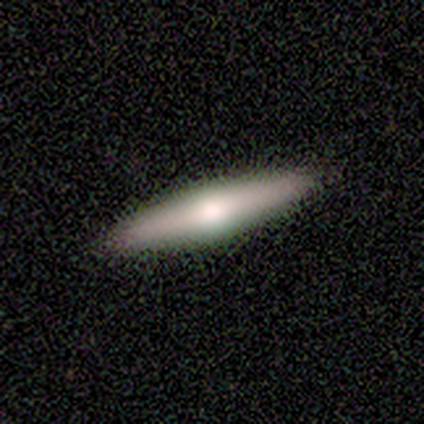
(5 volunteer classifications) Overall: featured or disk (60%; smooth 40%). Edge-on disk: yes (100%). Edge-on bulge: rounded (100%). Merging: none (100%).